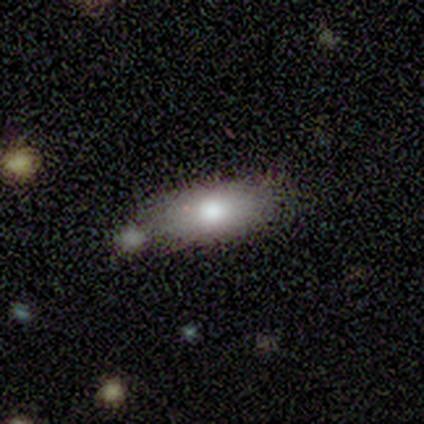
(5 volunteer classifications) Overall: smooth (80%). How rounded: in between (50%, tied with cigar-shaped). Merging: none (75%).